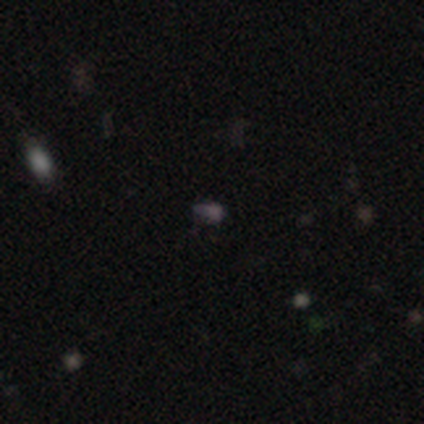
Smooth or featured?
  - star or artifact: 67% *
  - smooth: 33%
  - featured or disk: 0%